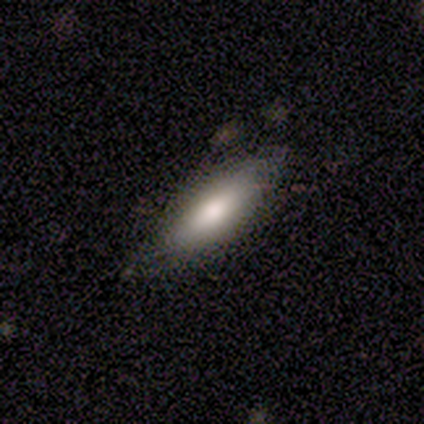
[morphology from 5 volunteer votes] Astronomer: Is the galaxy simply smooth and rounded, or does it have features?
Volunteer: smooth — 80%.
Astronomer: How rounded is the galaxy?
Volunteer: in between — 100%.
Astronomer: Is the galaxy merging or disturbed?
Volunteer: none — 80%.